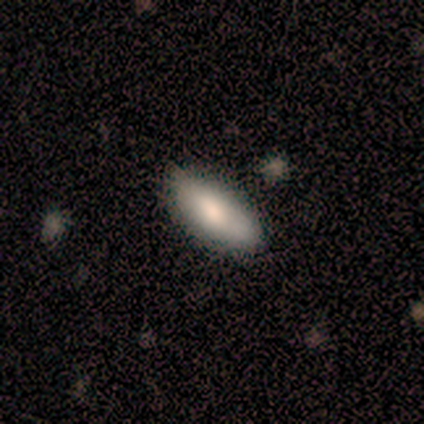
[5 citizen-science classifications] A smooth galaxy with no disk features (60%) that is in between round and cigar-shaped (100%). Merging: none (80%).